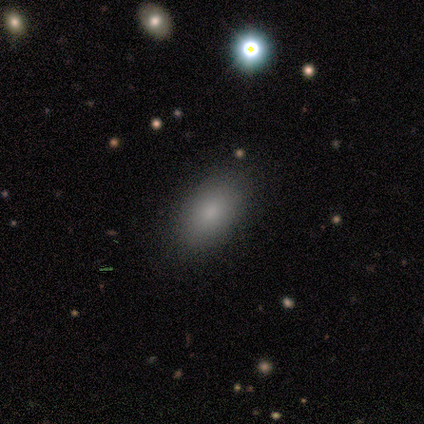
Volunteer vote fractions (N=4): smooth-or-featured: smooth: 100% | featured or disk: 0% | star or artifact: 0%
  how-rounded: in between: 100% | round: 0% | cigar-shaped: 0%
  merging: none: 75% | minor disturbance: 25% | major disturbance: 0% | merger: 0%